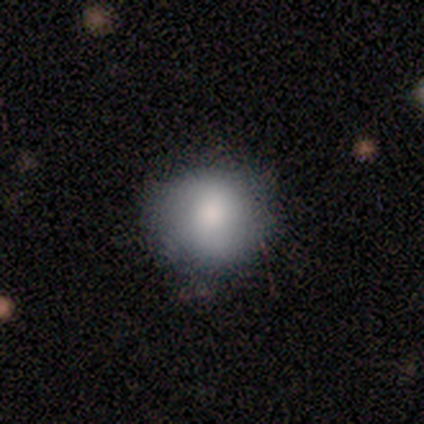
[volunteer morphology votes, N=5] Q: Smooth or featured?
A: smooth (40%); tied with: star or artifact (40%)
Q: How rounded?
A: round (100%)
Q: Merging?
A: none (100%)